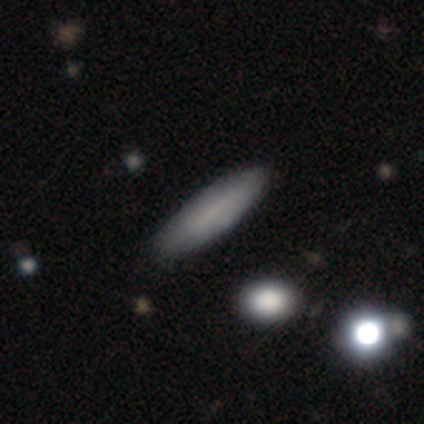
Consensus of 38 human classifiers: Smooth or featured? 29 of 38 (76%) said smooth. How rounded? 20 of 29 (69%) said cigar-shaped. Merging? 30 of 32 (94%) said none.